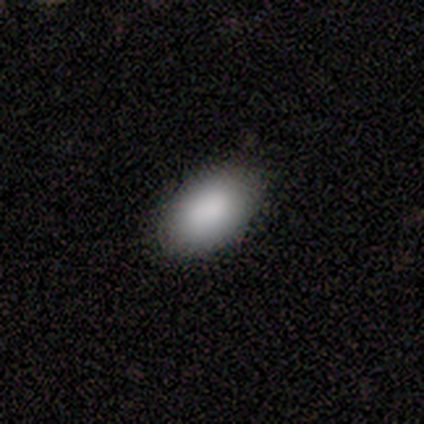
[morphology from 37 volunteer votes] A smooth galaxy with no disk features (92%) that is in between round and cigar-shaped (91%).

Vote fractions:
- Smooth or featured? smooth: 92% / star or artifact: 5% / featured or disk: 3%
- How rounded? in between: 91% / round: 9% / cigar-shaped: 0%
- Merging? none: 74% / minor disturbance: 20% / major disturbance: 6% / merger: 0%